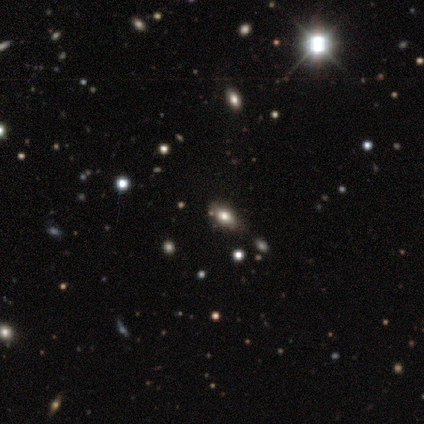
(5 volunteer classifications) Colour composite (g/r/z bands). It shows a smooth galaxy with no disk features (80%) that is in between round and cigar-shaped (100%). Merging: none (40%).